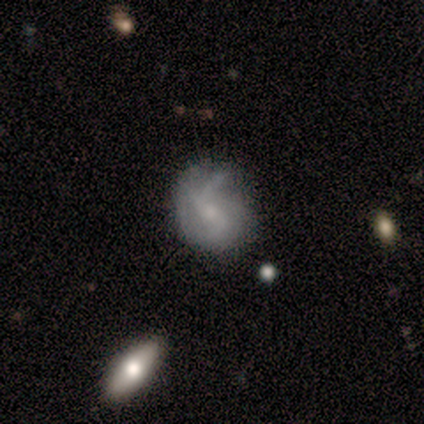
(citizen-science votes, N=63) Smooth or featured? 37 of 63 (59%) said featured or disk. Edge-on disk? 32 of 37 (86%) said no. Bar? 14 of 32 (44%) said weak. Spiral arms? 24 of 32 (75%) said yes. Spiral winding? 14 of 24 (58%) said loose. Spiral arm count? 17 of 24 (71%) said 2. Bulge size? 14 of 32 (44%) said moderate. Merging? 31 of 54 (57%) said none.